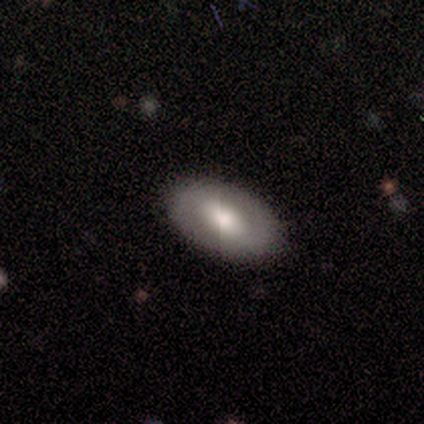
This appears to be a smooth galaxy with no disk features (80%) that is in between round and cigar-shaped (100%). Merging: none (100%).